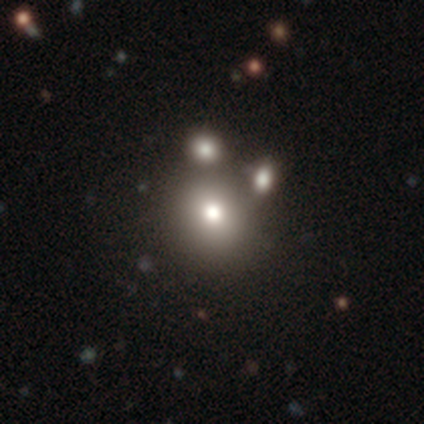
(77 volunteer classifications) Morphology: type=smooth (68%); roundness=round (85%); merging=merger (42%).